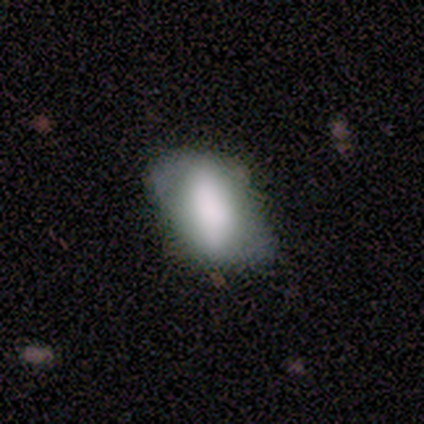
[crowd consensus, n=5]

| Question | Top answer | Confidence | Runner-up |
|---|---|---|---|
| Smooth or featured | smooth | 60% | featured or disk (40%) |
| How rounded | in between | 100% | — |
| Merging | minor disturbance | 60% | none (40%) |